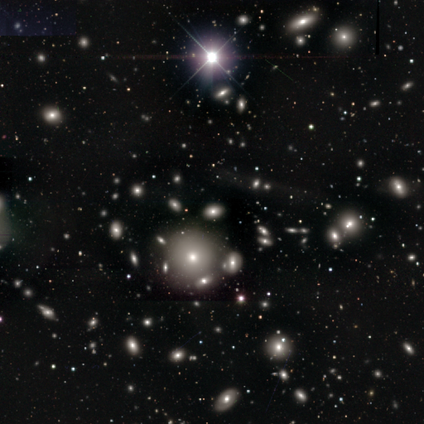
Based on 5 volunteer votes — Volunteers were most divided on "smooth or featured" (2-way tie): smooth: 40%, star or artifact: 40%, featured or disk: 20%; "how rounded" (2-way tie): round: 50%, in between: 50%, cigar-shaped: 0%. More confident: merging — minor disturbance (67%).